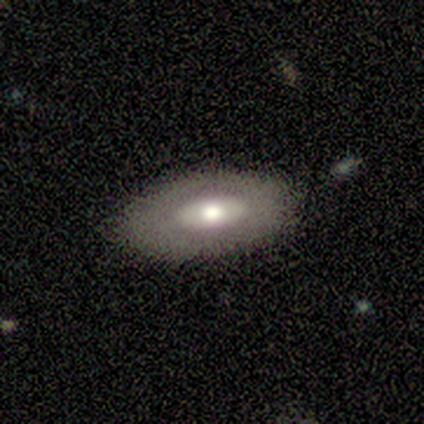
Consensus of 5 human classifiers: smooth 80%, featured or disk 20%, star or artifact 0%. Down the decision tree: how rounded — in between (100%); merging — none (60%).